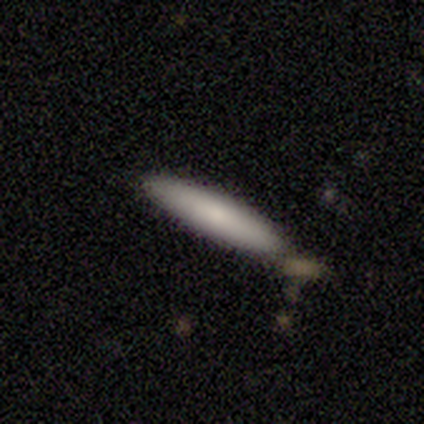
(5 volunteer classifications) Smooth or featured? smooth (40%, tied with featured or disk)
How rounded? cigar-shaped (100%)
Merging? none (100%)